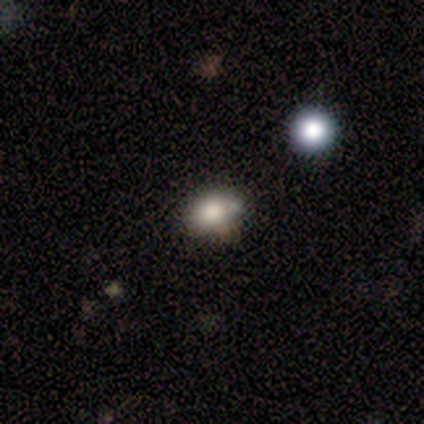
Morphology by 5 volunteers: smooth 60%, featured or disk 20%, star or artifact 20%. Down the decision tree: how rounded — in between (100%); merging — none (50%, tied with minor disturbance).